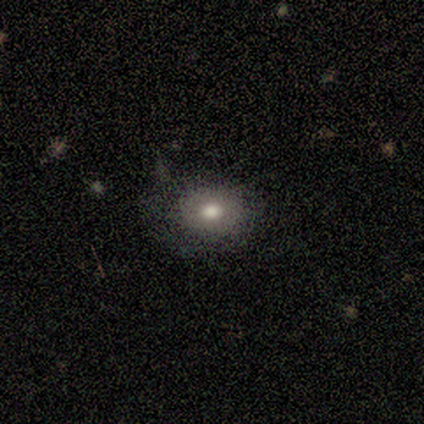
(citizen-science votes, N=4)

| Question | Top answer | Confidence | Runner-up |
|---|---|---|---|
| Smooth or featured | smooth | 50% | tied: featured or disk (50%) |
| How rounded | round | 50% | tied: in between (50%) |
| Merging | none | 50% | tied: minor disturbance (50%) |